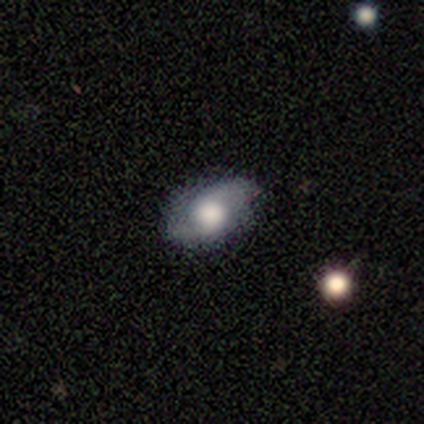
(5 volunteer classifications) This is likely a featured or disk galaxy (60%). It is clearly not viewed edge-on (100%). Bar: likely no (67%). Spiral arm pattern: clearly yes (100%). Spiral arm count: clearly 2 (100%). Spiral winding: likely medium (67%). Central bulge: likely large (67%). Merging: likely none (60%).